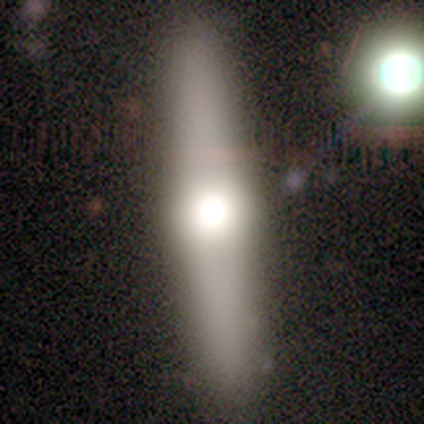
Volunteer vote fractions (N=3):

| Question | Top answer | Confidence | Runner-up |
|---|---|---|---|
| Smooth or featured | smooth | 67% | featured or disk (33%) |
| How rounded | round | 50% | tied: cigar-shaped (50%) |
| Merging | none | 100% | — |